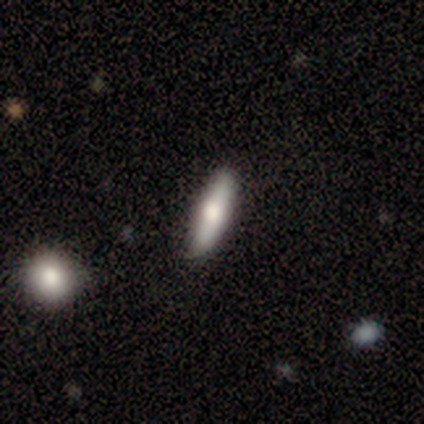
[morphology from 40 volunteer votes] smooth 55%, featured or disk 40%, star or artifact 5%. Down the decision tree: how rounded — cigar-shaped (55%); merging — none (76%).